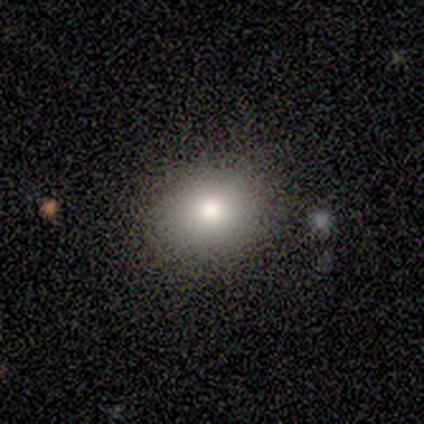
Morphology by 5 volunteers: smooth-or-featured: smooth: 80% | star or artifact: 20% | featured or disk: 0%
  how-rounded: round: 75% | in between: 25% | cigar-shaped: 0%
  merging: none: 100% | minor disturbance: 0% | major disturbance: 0% | merger: 0%